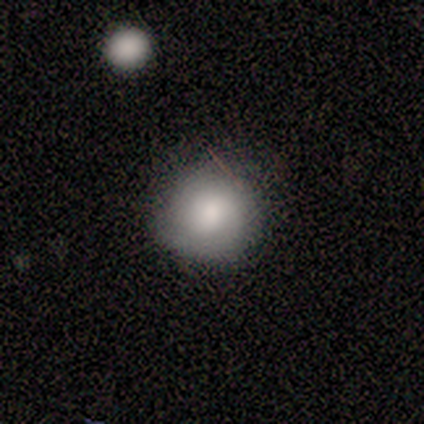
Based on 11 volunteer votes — smooth 91%, star or artifact 9%, featured or disk 0%. Down the decision tree: how rounded — round (100%); merging — none (80%).